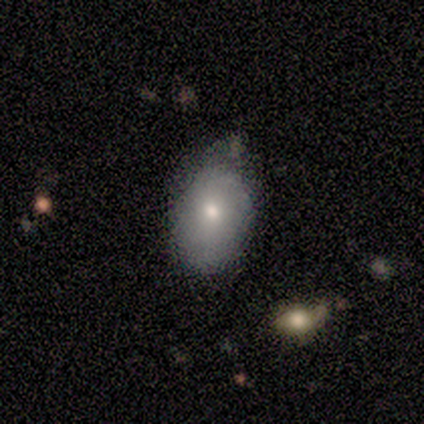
smooth 81%, featured or disk 11%, star or artifact 8%. Down the decision tree: how rounded — in between (97%); merging — none (61%).